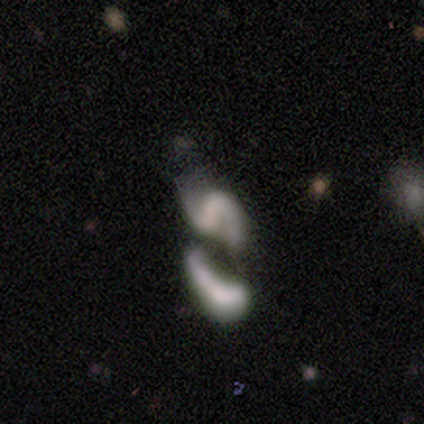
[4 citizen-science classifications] This is possibly a featured or disk galaxy (50%). It is clearly not viewed edge-on (100%). Bar: clearly weak (100%). Spiral arm pattern: clearly yes (100%). Spiral arm count: possibly 1 (50%, tied with 2). Spiral winding: possibly tight (50%, tied with medium). Central bulge: possibly moderate (50%, tied with none). Merging: likely none (67%).